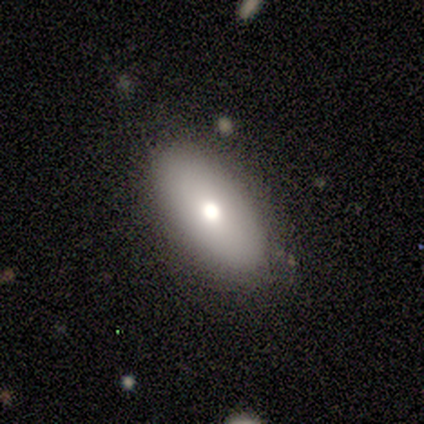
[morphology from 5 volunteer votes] Smooth or featured: smooth — 100%
How rounded: in between — 80% (cigar-shaped — 20%)
Merging: none — 100%